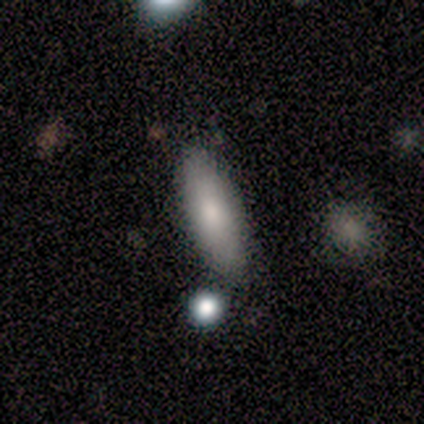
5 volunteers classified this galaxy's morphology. Smooth or featured: smooth — 100%
How rounded: in between — 60% (cigar-shaped — 40%)
Merging: none — 60% (minor disturbance — 40%)